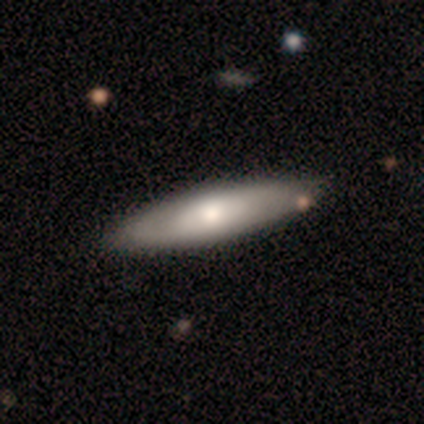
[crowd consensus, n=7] Smooth or featured: featured or disk — 57% (smooth — 43%)
Edge-on disk: no — 75% (yes — 25%)
Bar: no — 100%
Spiral arms: no — 67% (yes — 33%)
Bulge size: moderate — 100%
Merging: none — 86% (major disturbance — 14%)